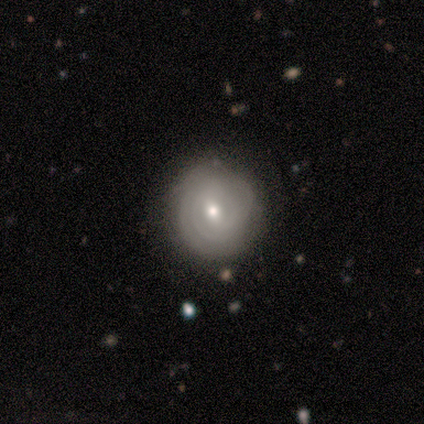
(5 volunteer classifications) smooth-or-featured: featured or disk: 80% | smooth: 20% | star or artifact: 0%
  disk-edge-on: no: 100% | yes: 0%
    bar: no: 50% | strong: 25% | weak: 25%
    has-spiral-arms: yes: 75% | no: 25%
      spiral-winding: tight: 100% | medium: 0% | loose: 0%
      spiral-arm-count: 2: 67% | 3: 33% | 1: 0% | 4: 0% | more than 4: 0% | can't tell: 0%
    bulge-size: moderate: 50% (tied) | small: 50% (tied) | dominant: 0% | large: 0% | none: 0%
  merging: none: 80% | minor disturbance: 20% | major disturbance: 0% | merger: 0%